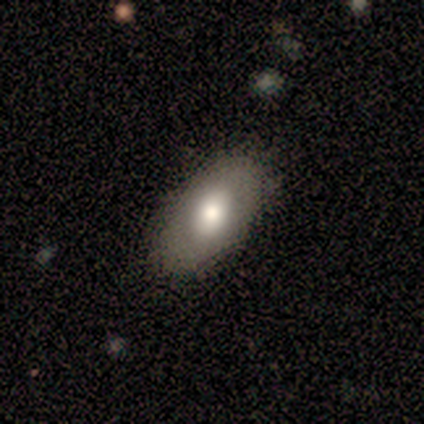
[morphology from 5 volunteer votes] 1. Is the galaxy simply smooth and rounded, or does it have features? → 80% smooth, 20% star or artifact, 0% featured or disk.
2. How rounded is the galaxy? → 100% in between, 0% round, 0% cigar-shaped.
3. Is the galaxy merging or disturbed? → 75% none, 25% minor disturbance, 0% major disturbance, 0% merger.